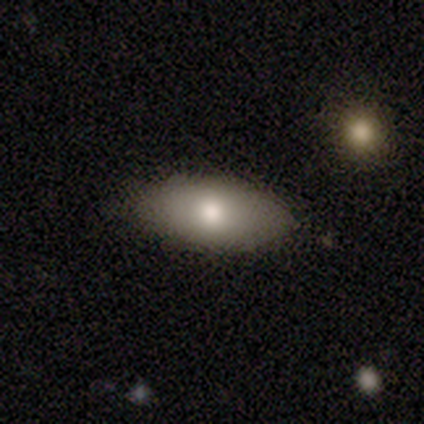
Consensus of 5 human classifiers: A smooth galaxy with no disk features (80%) that is in between round and cigar-shaped (75%). Merging: none (100%).